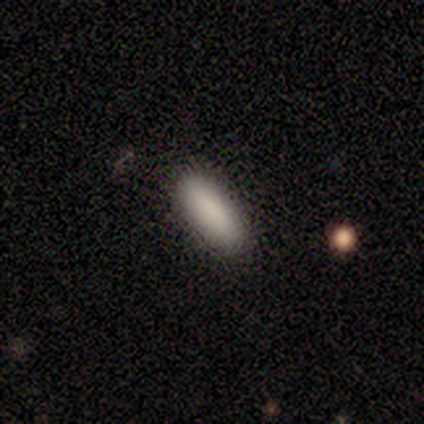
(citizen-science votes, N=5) Overall: smooth (100%). How rounded: in between (80%). Merging: none (80%).